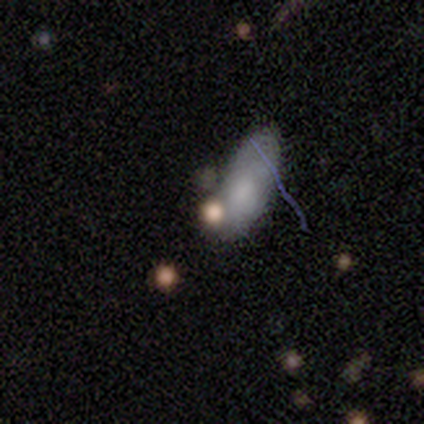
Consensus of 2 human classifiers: Morphology: type=smooth (50%, tied with star or artifact); roundness=in between (100%); merging=none (100%).